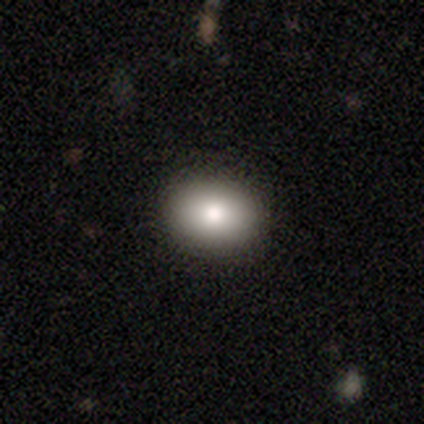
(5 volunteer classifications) Smooth or featured? smooth (80%)
How rounded? in between (75%)
Merging? none (100%)